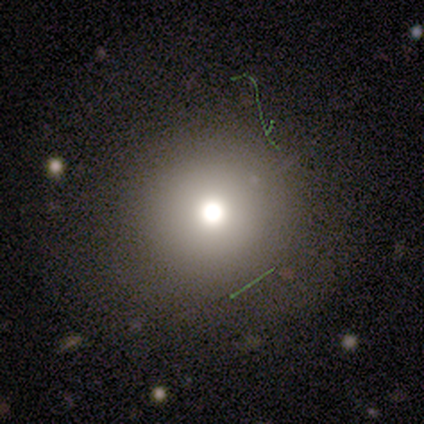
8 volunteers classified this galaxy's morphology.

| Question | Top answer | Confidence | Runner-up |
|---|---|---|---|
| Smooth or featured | smooth | 50% | featured or disk (25%) |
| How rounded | round | 100% | — |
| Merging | none | 83% | minor disturbance (17%) |